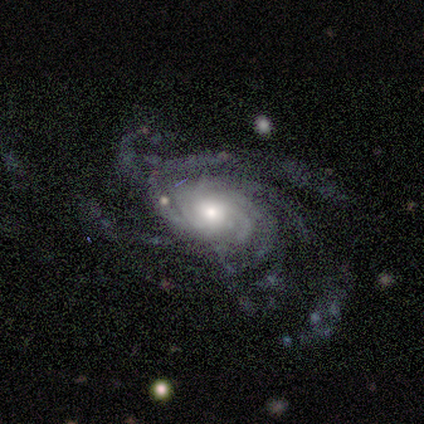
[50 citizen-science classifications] Volunteers were most divided on "merging" (2-way tie): none: 43%, major disturbance: 43%, minor disturbance: 13%, merger: 2%. Remaining: spiral arms — yes (100%); edge-on disk — no (98%); smooth or featured — featured or disk (92%); bar — no (82%); bulge size — moderate (58%); spiral winding — tight (44%); spiral arm count — more than 4 (44%).